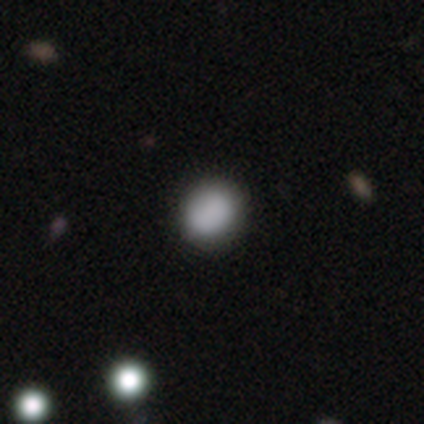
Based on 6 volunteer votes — Morphology: type=smooth (83%); roundness=round (80%); merging=none (100%).